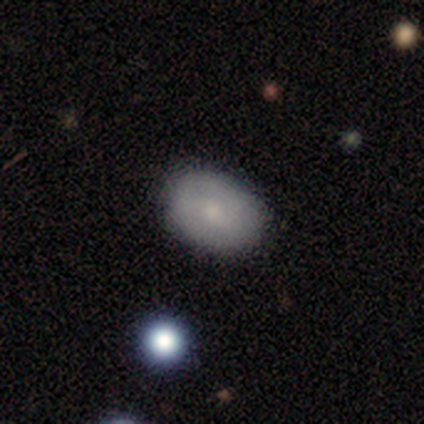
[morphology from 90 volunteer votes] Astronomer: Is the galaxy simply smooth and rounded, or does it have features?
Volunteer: smooth — 74%.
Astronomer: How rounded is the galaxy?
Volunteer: in between — 78%.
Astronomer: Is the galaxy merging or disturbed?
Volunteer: none — 88%.